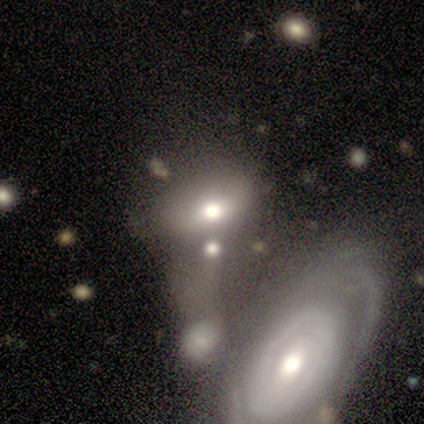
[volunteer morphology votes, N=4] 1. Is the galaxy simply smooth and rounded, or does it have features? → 75% featured or disk, 25% smooth, 0% star or artifact.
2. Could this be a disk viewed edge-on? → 67% no, 33% yes.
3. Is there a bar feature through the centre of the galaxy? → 100% no, 0% strong, 0% weak.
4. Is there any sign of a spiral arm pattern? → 50% yes (tied), 50% no (tied).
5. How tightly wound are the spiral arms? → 100% loose, 0% tight, 0% medium.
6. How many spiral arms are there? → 100% can't tell, 0% 1, 0% 2, 0% 3, 0% 4, 0% more than 4.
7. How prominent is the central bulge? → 50% moderate (tied), 50% small (tied), 0% dominant, 0% large, 0% none.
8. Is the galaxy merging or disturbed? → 75% merger, 25% none, 0% minor disturbance, 0% major disturbance.